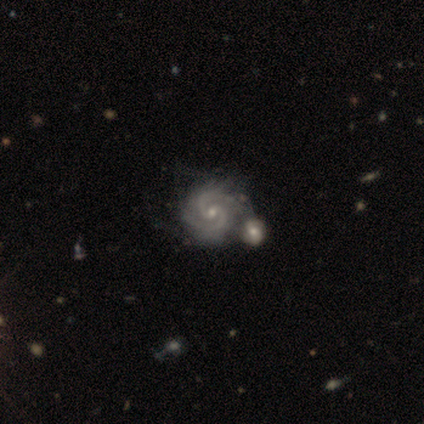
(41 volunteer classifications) featured or disk 90%, star or artifact 7%, smooth 2%. Down the decision tree: edge-on disk — no (100%); bar — no (51%); spiral arms — yes (97%); spiral arm count — 2 (67%); spiral winding — tight (58%); bulge size — small (57%); merging — merger (55%).